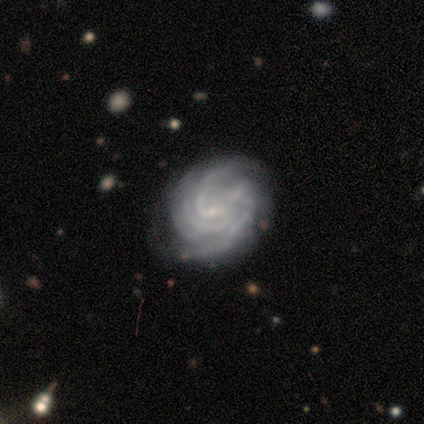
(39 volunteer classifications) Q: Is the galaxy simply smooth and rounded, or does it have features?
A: featured or disk — 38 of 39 (97%).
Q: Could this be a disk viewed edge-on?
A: no — 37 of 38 (97%).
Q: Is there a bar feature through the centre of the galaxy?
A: weak — 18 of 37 (49%, tied with no).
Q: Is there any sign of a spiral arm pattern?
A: yes — 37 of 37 (100%).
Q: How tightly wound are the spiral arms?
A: tight — 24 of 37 (65%).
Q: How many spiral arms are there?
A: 4 — 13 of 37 (35%).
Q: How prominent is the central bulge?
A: small — 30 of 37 (81%).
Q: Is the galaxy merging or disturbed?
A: none — 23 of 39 (59%).